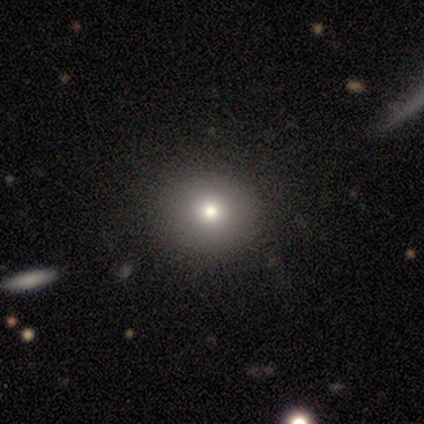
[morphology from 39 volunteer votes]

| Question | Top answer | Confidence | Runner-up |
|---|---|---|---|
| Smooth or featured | smooth | 79% | star or artifact (13%) |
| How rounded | round | 87% | in between (13%) |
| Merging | none | 97% | minor disturbance (3%) |